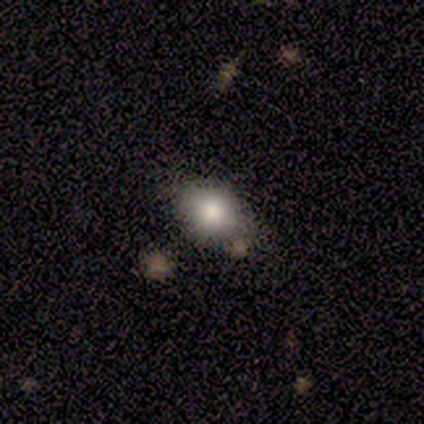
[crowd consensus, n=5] Volunteers were most divided on "how rounded" (2-way tie): round: 50%, in between: 50%, cigar-shaped: 0%. More confident: merging — none (100%); smooth or featured — smooth (80%).